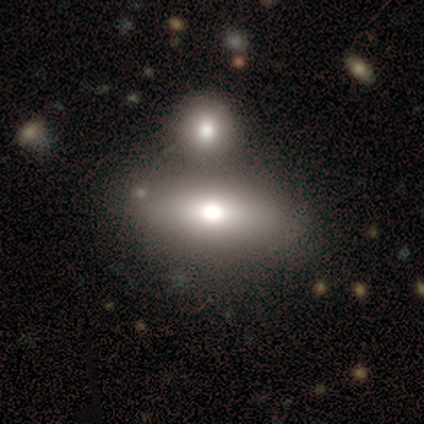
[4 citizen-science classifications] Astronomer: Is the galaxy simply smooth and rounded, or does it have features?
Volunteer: smooth — 75%.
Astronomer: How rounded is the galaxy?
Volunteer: in between — 100%.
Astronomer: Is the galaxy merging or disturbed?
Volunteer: none — 75%.